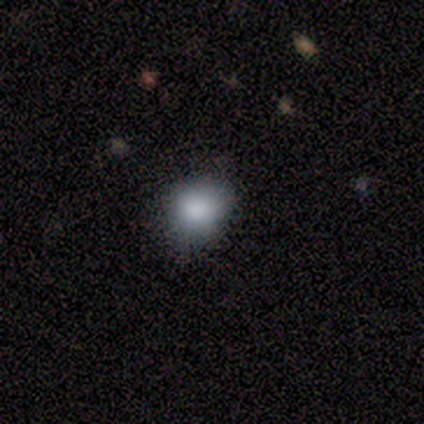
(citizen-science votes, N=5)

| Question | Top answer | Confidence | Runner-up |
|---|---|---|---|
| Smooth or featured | smooth | 60% | star or artifact (40%) |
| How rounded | round | 100% | — |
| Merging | none | 100% | — |